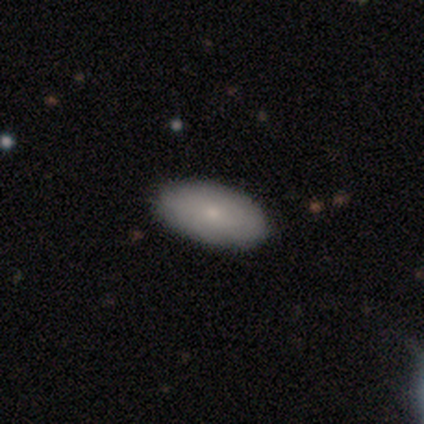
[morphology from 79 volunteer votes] This appears to be a smooth galaxy with no disk features (82%) that is in between round and cigar-shaped (98%). Merging: none (49%).